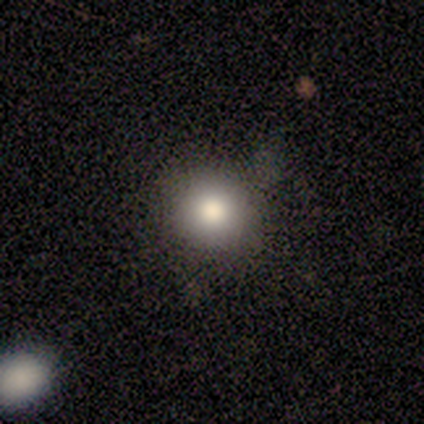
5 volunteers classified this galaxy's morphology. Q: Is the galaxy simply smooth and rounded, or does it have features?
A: smooth — 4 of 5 (80%).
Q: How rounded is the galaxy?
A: round — 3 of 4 (75%).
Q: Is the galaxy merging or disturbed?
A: none — 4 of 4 (100%).